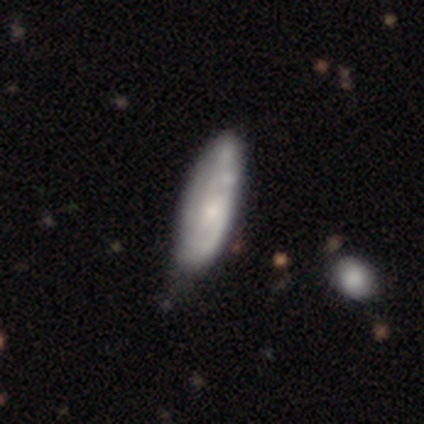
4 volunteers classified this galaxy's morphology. Smooth or featured? smooth (50%, tied with featured or disk)
How rounded? in between (100%)
Merging? minor disturbance (75%)